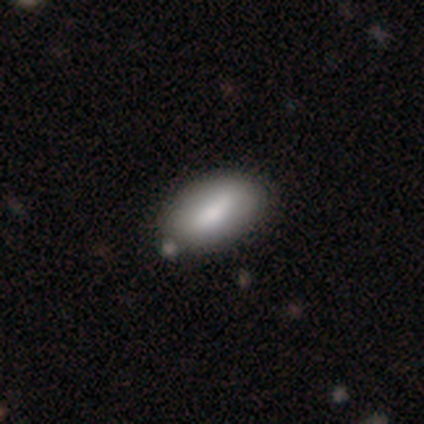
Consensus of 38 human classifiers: smooth 76%, featured or disk 21%, star or artifact 3%. Down the decision tree: how rounded — in between (97%); merging — none (49%).